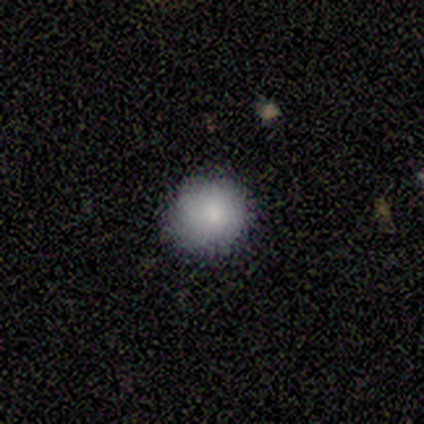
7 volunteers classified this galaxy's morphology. type=smooth (86%); roundness=round (83%); merging=none (100%).